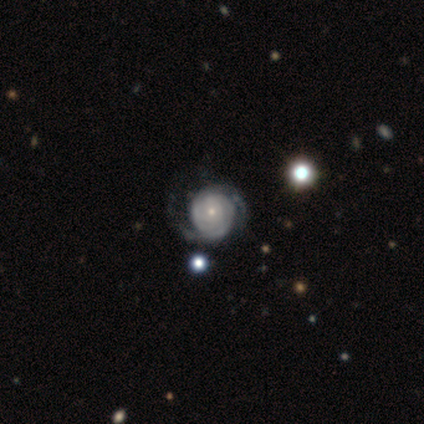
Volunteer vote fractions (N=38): Smooth or featured?
  - featured or disk: 92% *
  - smooth: 8%
  - star or artifact: 0%
Edge-on disk?
  - no: 100% *
  - yes: 0%
Bar?
  - no: 80% *
  - weak: 20%
  - strong: 0%
Spiral arms?
  - yes: 94% *
  - no: 6%
Spiral winding?
  - tight: 70% *
  - medium: 18%
  - loose: 12%
Spiral arm count?
  - 2: 61% *
  - can't tell: 36%
  - 3: 3%
  - 1: 0%
  - 4: 0%
  - more than 4: 0%
Bulge size?
  - small: 83% *
  - moderate: 11%
  - dominant: 6%
  - large: 0%
  - none: 0%
Merging?
  - none: 47% *
  - minor disturbance: 16%
  - major disturbance: 11%
  - merger: 3%